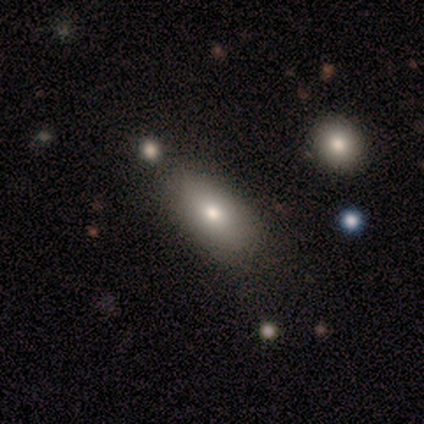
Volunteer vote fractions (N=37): Morphology: type=smooth (86%); roundness=in between (91%); merging=none (74%).